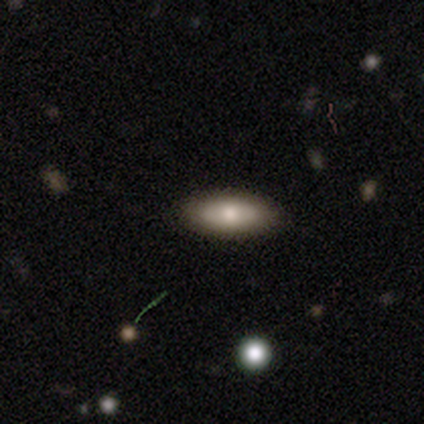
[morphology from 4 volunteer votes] This appears to be a smooth galaxy with no disk features (50%, tied with featured or disk) that is in between round and cigar-shaped (50%, tied with cigar-shaped). Merging: none (100%).